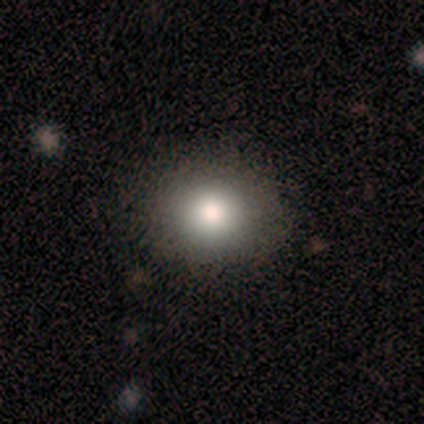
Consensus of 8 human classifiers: Volunteers were most divided on "merging": none: 86%, minor disturbance: 14%, major disturbance: 0%, merger: 0%. More confident: how rounded — round (100%); smooth or featured — smooth (88%).